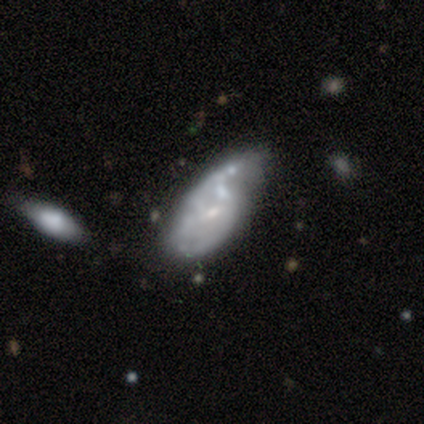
Overall: smooth (40%, tied with featured or disk). How rounded: in between (100%). Merging: major disturbance (50%; minor disturbance 25%).